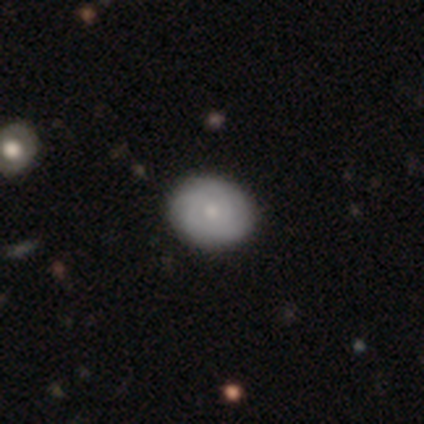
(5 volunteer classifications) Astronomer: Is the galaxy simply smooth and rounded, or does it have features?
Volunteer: featured or disk — 60% (runner-up: smooth, 40%).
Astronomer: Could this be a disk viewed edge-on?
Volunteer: no — 100%.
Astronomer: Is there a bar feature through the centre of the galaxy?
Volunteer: no — 100%.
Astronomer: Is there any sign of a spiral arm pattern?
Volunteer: no — 67%.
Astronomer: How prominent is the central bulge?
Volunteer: moderate — 67%.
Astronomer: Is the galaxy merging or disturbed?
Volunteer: none — 100%.